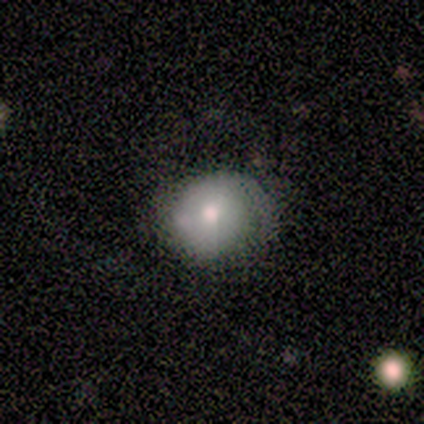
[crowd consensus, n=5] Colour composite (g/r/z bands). It shows a smooth galaxy with no disk features (80%) that is round (75%). Merging: none (100%).